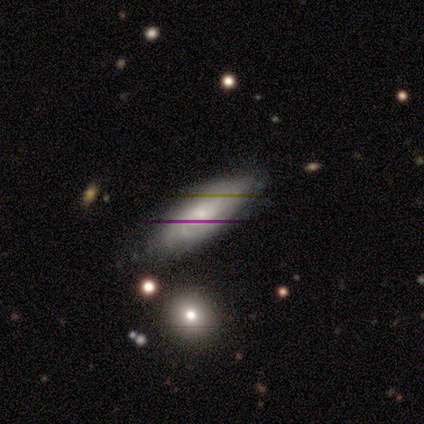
smooth-or-featured: featured or disk: 60% | smooth: 20% | star or artifact: 20%
  disk-edge-on: no: 100% | yes: 0%
    bar: no: 100% | strong: 0% | weak: 0%
    has-spiral-arms: yes: 67% | no: 33%
      spiral-winding: tight: 100% | medium: 0% | loose: 0%
      spiral-arm-count: can't tell: 100% | 1: 0% | 2: 0% | 3: 0% | 4: 0% | more than 4: 0%
    bulge-size: small: 67% | moderate: 33% | dominant: 0% | large: 0% | none: 0%
  merging: none: 100% | minor disturbance: 0% | major disturbance: 0% | merger: 0%